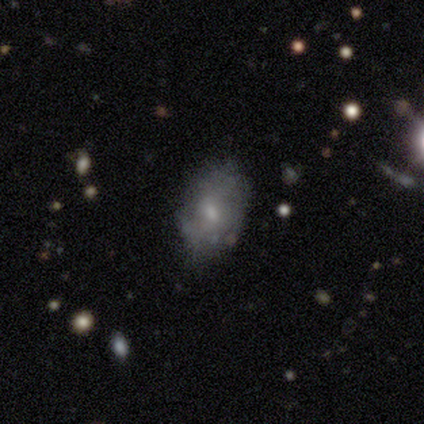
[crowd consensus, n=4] Smooth or featured? smooth (50%, tied with featured or disk)
How rounded? in between (100%)
Merging? none (75%)